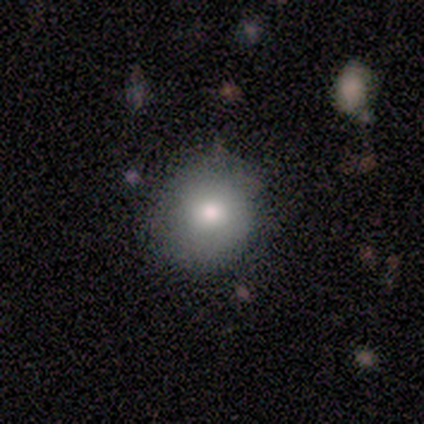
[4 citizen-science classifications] Q: Smooth or featured?
A: smooth (100%)
Q: How rounded?
A: round (100%)
Q: Merging?
A: none (100%)